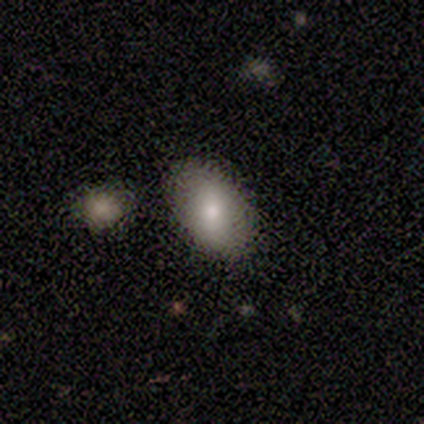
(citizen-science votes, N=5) Smooth or featured? smooth (80%)
How rounded? in between (75%)
Merging? none (80%)